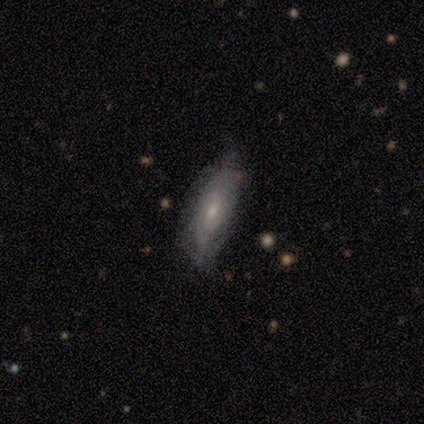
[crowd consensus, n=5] Smooth or featured: featured or disk — 60% (smooth — 40%)
Edge-on disk: no — 100%
Bar: weak — 67% (no — 33%)
Spiral arms: yes — 100%
Spiral winding: tight — 100%
Spiral arm count: can't tell — 67% (2 — 33%)
Bulge size: small — 100%
Merging: none — 60% (minor disturbance — 40%)